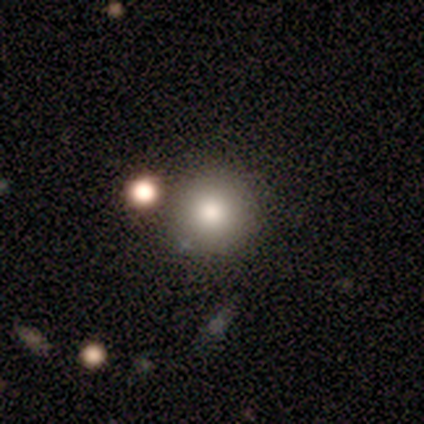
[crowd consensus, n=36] smooth_or_featured: smooth (p=0.86) [alt: featured or disk p=0.11]
how_rounded: round (p=0.87) [alt: in between p=0.13]
merging: none (p=0.74) [alt: minor disturbance p=0.14]